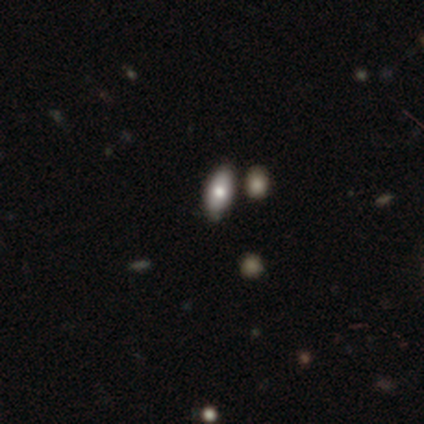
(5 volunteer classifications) Smooth or featured?
  - featured or disk: 60% *
  - smooth: 40%
  - star or artifact: 0%
Edge-on disk?
  - no: 67% *
  - yes: 33%
Bar?
  - no: 100% *
  - strong: 0%
  - weak: 0%
Spiral arms?
  - no: 100% *
  - yes: 0%
Bulge size?
  - large: 50% * (tied)
  - moderate: 50% * (tied)
  - dominant: 0%
  - small: 0%
  - none: 0%
Merging?
  - none: 80% *
  - minor disturbance: 20%
  - major disturbance: 0%
  - merger: 0%